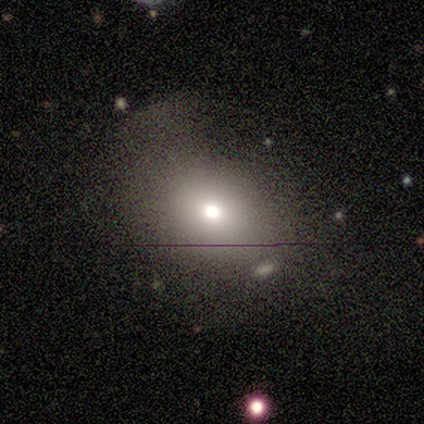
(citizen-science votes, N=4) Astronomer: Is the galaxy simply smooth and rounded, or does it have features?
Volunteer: smooth — 50%.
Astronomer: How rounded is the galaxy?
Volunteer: round — 50%, tied with in between at 50%.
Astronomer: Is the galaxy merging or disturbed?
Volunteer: minor disturbance — 67%.